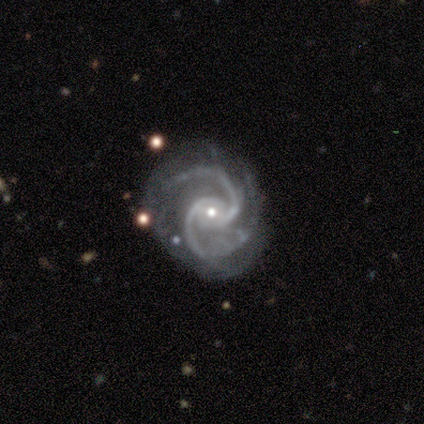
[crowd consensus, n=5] This is clearly a featured or disk galaxy (100%). It is clearly not viewed edge-on (100%). Bar: likely no (60%). Spiral arm pattern: clearly yes (100%). Spiral arm count: clearly 2 (100%). Spiral winding: likely medium (60%). Central bulge: clearly small (100%). Merging: likely none (60%).